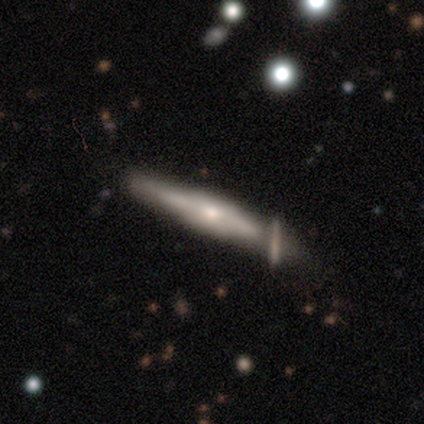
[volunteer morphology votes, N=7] Smooth or featured: featured or disk — 57% (smooth — 43%)
Edge-on disk: yes — 100%
Edge-on bulge: boxy — 50% (tied with rounded — 50%)
Merging: none — 57% (merger — 29%)